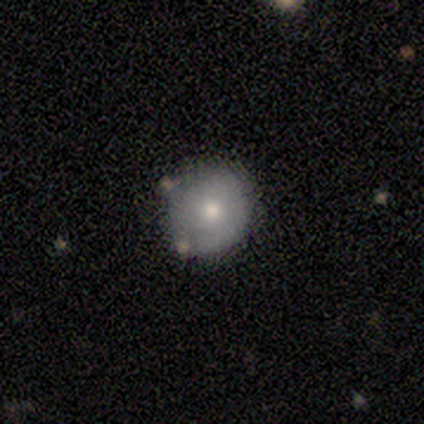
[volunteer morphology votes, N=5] Volunteers were most divided on "smooth or featured": smooth: 80%, featured or disk: 20%, star or artifact: 0%. More confident: how rounded — round (100%); merging — none (80%).